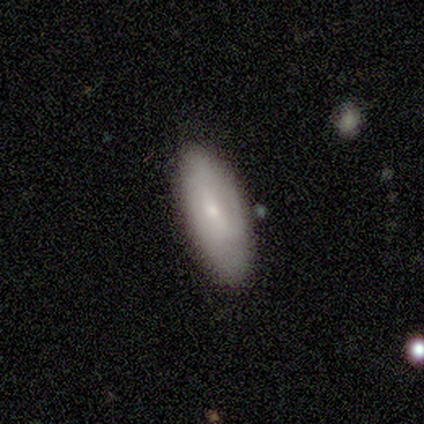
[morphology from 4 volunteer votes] Overall: smooth (50%, tied with featured or disk). How rounded: in between (100%). Merging: none (100%).